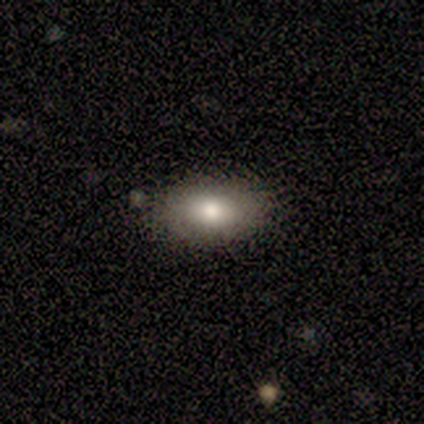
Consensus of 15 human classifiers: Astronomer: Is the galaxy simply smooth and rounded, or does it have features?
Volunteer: smooth — 80%.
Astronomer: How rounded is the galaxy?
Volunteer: in between — 92%.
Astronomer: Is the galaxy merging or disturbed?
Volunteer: none — 79%.